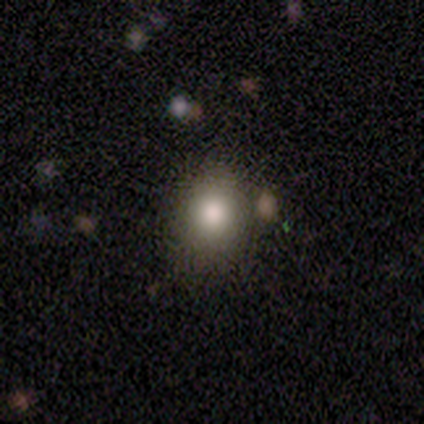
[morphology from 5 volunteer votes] smooth 100%, featured or disk 0%, star or artifact 0%. Down the decision tree: how rounded — round (60%); merging — none (100%).